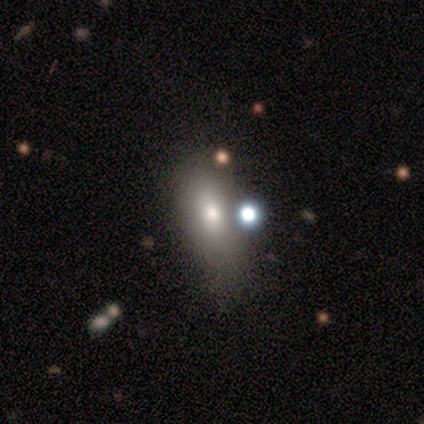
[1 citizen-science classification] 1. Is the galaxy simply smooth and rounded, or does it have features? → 100% smooth, 0% featured or disk, 0% star or artifact.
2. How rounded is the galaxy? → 100% in between, 0% round, 0% cigar-shaped.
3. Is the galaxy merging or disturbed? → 100% none, 0% minor disturbance, 0% major disturbance, 0% merger.